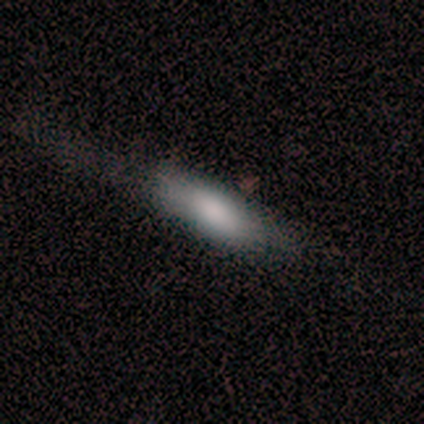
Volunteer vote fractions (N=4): smooth 75%, featured or disk 25%, star or artifact 0%. Down the decision tree: how rounded — in between (100%); merging — major disturbance (50%).